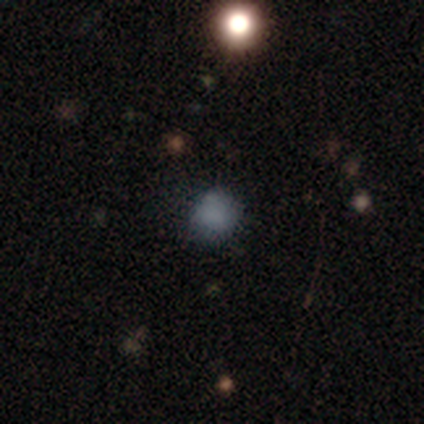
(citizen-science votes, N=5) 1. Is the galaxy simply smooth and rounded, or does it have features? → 60% smooth, 40% star or artifact, 0% featured or disk.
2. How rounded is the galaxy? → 67% in between, 33% round, 0% cigar-shaped.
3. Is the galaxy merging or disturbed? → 100% none, 0% minor disturbance, 0% major disturbance, 0% merger.